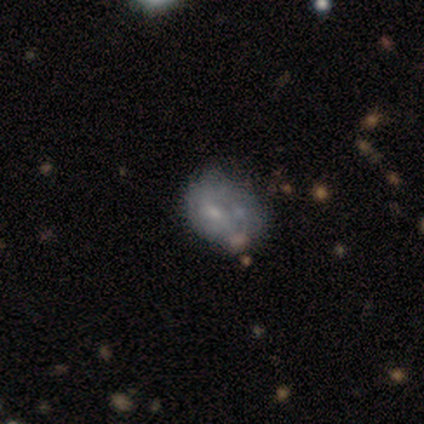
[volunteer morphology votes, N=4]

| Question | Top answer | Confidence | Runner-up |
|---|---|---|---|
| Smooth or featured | smooth | 50% | featured or disk (25%) |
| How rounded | in between | 100% | — |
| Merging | merger | 67% | major disturbance (33%) |